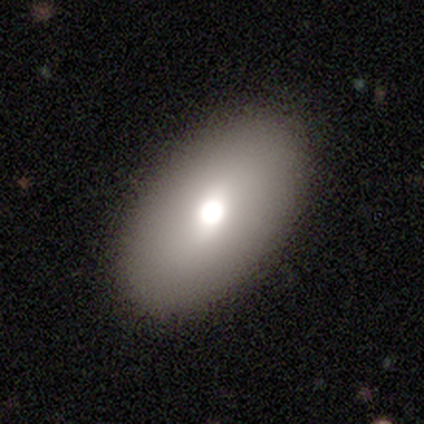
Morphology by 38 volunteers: Volunteers were most divided on "smooth or featured": smooth: 76%, featured or disk: 18%, star or artifact: 5%. More confident: how rounded — in between (93%); merging — none (92%).